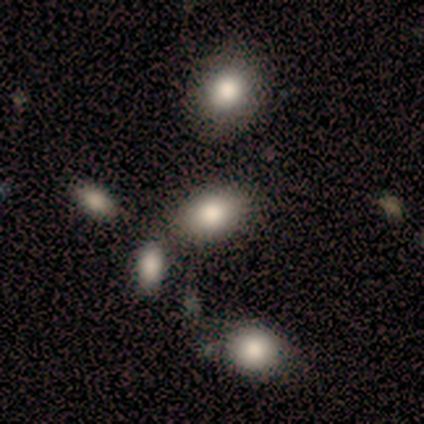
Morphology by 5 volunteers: Smooth or featured: smooth — 60% (featured or disk — 20%)
How rounded: in between — 100%
Merging: minor disturbance — 50% (none — 25%)